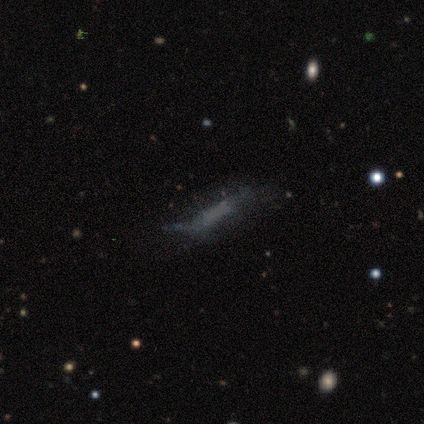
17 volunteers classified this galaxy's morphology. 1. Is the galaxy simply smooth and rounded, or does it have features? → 47% smooth, 35% featured or disk, 18% star or artifact.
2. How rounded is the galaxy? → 62% cigar-shaped, 38% in between, 0% round.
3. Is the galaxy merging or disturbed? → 50% none, 29% major disturbance, 21% minor disturbance, 0% merger.